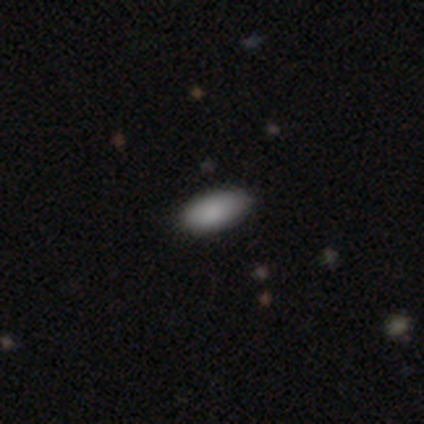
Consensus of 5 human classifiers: This appears to be a smooth galaxy with no disk features (60%) that is in between round and cigar-shaped (100%). Merging: none (100%).